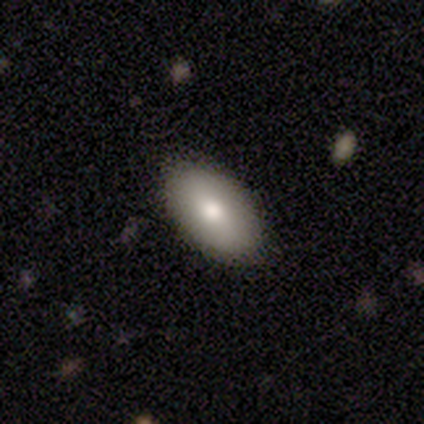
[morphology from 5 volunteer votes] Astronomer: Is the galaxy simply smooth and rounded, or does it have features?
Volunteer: smooth — 60% (runner-up: featured or disk, 40%).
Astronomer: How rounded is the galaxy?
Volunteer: in between — 67%.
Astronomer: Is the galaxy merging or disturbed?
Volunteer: none — 80%.